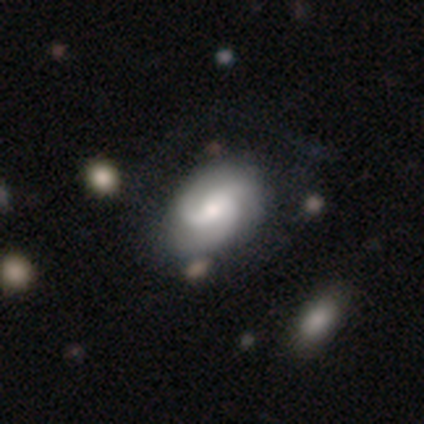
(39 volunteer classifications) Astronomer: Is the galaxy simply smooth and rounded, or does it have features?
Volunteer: featured or disk — 85%.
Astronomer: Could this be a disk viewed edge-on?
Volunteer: no — 100%.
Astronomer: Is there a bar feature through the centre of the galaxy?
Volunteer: no — 58% (runner-up: weak, 33%).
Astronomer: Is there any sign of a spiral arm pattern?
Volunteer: yes — 97%.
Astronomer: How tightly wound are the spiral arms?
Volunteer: medium — 50% (runner-up: tight, 34%).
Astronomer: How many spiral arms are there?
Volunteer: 3 — 53%.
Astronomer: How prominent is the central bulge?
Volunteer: moderate — 48% (runner-up: small, 36%).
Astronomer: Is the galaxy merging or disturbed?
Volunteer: none — 66%.